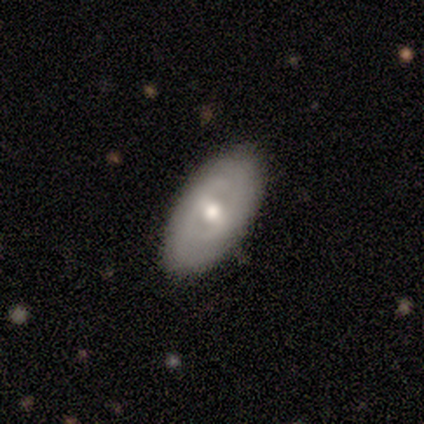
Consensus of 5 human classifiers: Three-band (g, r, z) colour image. It shows a smooth galaxy with no disk features (60%) that is in between round and cigar-shaped (100%). Merging: none (80%).